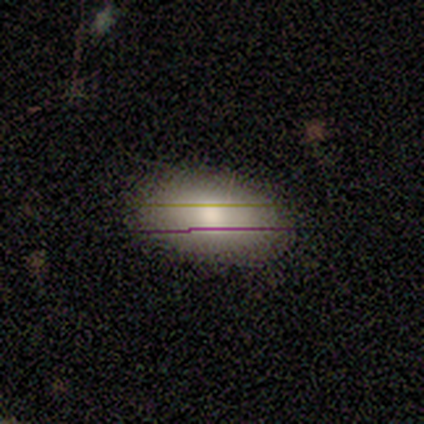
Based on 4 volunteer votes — Overall: smooth (75%). How rounded: in between (100%). Merging: none (100%).